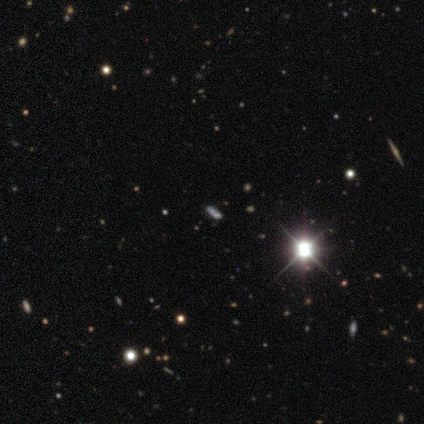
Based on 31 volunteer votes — Smooth or featured? 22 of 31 (71%) said star or artifact.